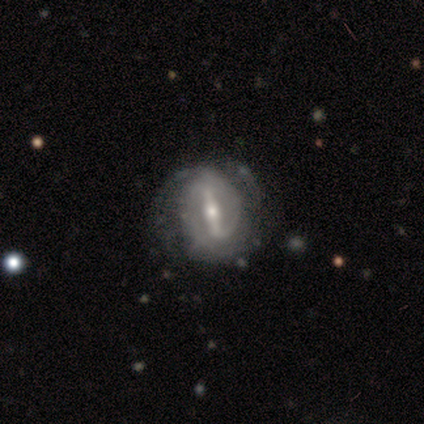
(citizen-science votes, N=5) smooth_or_featured: featured or disk (p=1.00)
disk_edge_on: no (p=0.60) [alt: yes p=0.40]
bar: strong (p=1.00)
has_spiral_arms: yes (p=0.67) [alt: no p=0.33]
spiral_winding: tight (p=0.50) [tied with: medium p=0.50]
spiral_arm_count: 2 (p=1.00)
bulge_size: large (p=0.33) [tied with: moderate p=0.33, small p=0.33]
merging: none (p=0.40) [tied with: minor disturbance p=0.40]